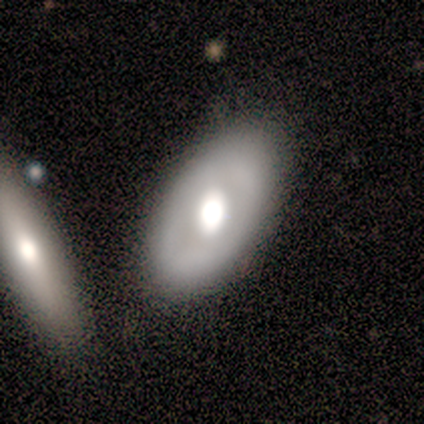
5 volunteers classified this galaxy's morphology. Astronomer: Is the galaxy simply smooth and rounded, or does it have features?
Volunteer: smooth — 60% (runner-up: featured or disk, 40%).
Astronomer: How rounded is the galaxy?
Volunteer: in between — 100%.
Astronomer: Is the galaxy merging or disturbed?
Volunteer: none — 60% (runner-up: minor disturbance, 40%).